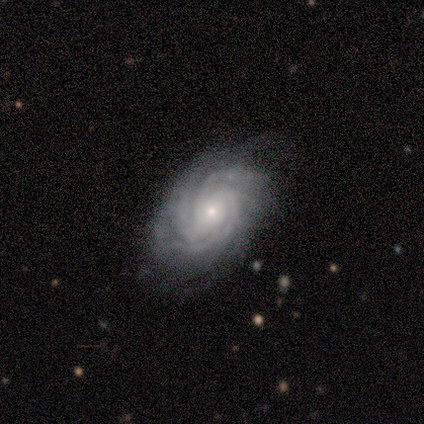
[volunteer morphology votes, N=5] This is clearly a featured or disk galaxy (100%). It is clearly not viewed edge-on (80%). Bar: clearly no (100%). Spiral arm pattern: clearly yes (100%). Spiral arm count: likely can't tell (75%). Spiral winding: likely tight (75%). Central bulge: likely small (75%). Merging: likely none (60%).